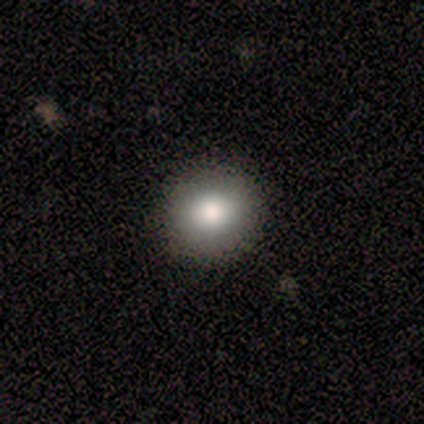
A smooth galaxy with no disk features (100%) that is round (100%).

Vote fractions:
- Smooth or featured? smooth: 100% / featured or disk: 0% / star or artifact: 0%
- How rounded? round: 100% / in between: 0% / cigar-shaped: 0%
- Merging? none: 100% / minor disturbance: 0% / major disturbance: 0% / merger: 0%